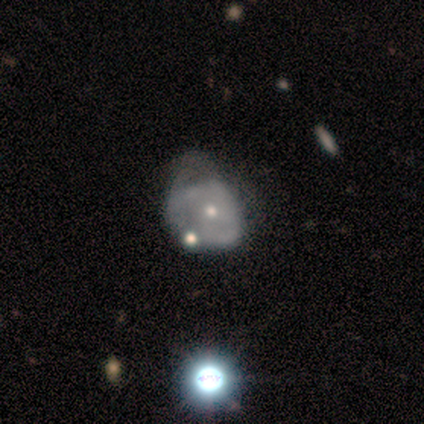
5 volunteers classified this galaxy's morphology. smooth-or-featured: featured or disk: 80% | star or artifact: 20% | smooth: 0%
  disk-edge-on: no: 100% | yes: 0%
    bar: no: 75% | strong: 25% | weak: 0%
    has-spiral-arms: no: 100% | yes: 0%
    bulge-size: small: 75% | moderate: 25% | dominant: 0% | large: 0% | none: 0%
  merging: minor disturbance: 50% (tied) | major disturbance: 50% (tied) | none: 0% | merger: 0%